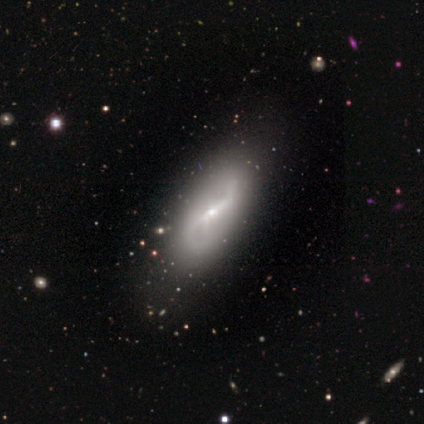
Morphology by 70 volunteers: type=featured or disk (77%); edge-on=no (91%); bar=strong (71%); spiral arms=yes (78%); winding=loose (68%); arm count=2 (79%); bulge=small (71%); merging=none (67%).